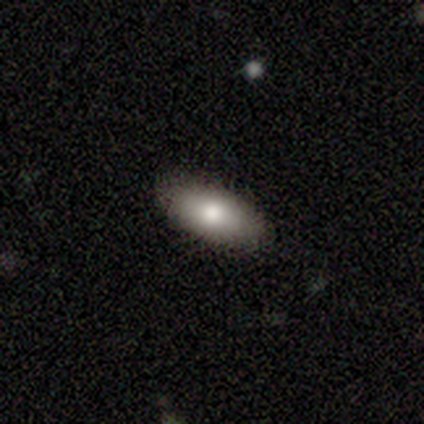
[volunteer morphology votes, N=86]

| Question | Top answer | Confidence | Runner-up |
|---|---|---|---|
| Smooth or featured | smooth | 85% | featured or disk (12%) |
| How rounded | in between | 78% | cigar-shaped (21%) |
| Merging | none | 88% | minor disturbance (7%) |